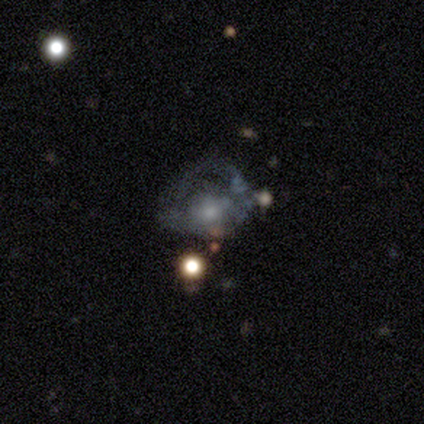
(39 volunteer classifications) Overall: featured or disk (62%). Edge-on disk: no (100%). Bar: no (79%). Spiral arms: no (67%; yes 33%). Bulge size: small (38%; moderate 25%). Merging: major disturbance (42%; none 26%).